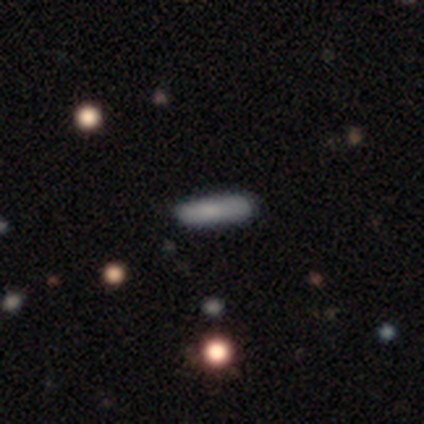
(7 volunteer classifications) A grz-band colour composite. It shows a smooth galaxy with no disk features (71%) that is cigar-shaped (100%). Merging: none (100%).